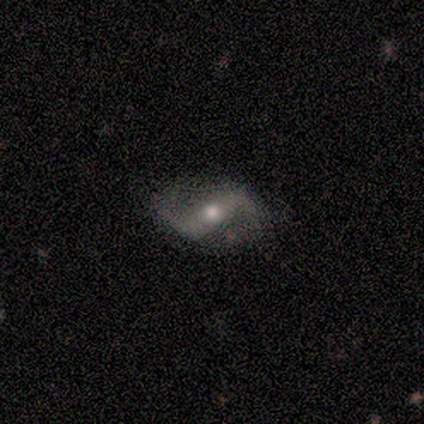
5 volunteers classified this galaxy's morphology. This is clearly a featured or disk galaxy (100%). It is clearly not viewed edge-on (100%). Bar: clearly weak (80%). Spiral arm pattern: clearly yes (80%). Spiral arm count: clearly 2 (100%). Spiral winding: possibly medium (50%, tied with loose). Central bulge: likely small (60%). Merging: clearly none (80%).